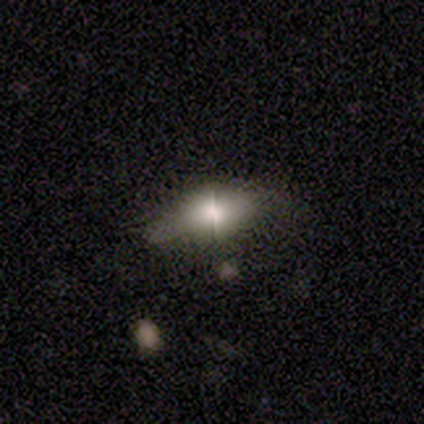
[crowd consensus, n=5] A featured or disk galaxy (60%) with a strong bar (67%), no spiral arms (100%) and a moderate central bulge (100%). Merging: none (60%).